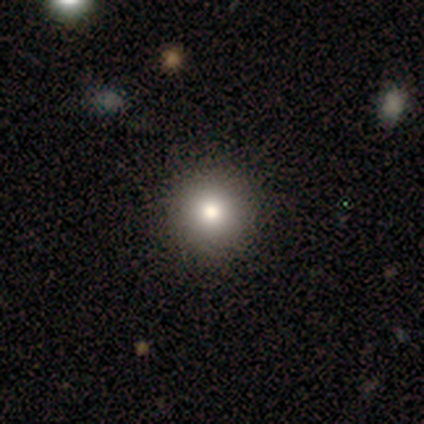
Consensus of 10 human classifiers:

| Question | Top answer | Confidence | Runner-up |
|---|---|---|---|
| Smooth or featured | smooth | 80% | featured or disk (20%) |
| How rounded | round | 88% | in between (12%) |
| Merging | none | 90% | minor disturbance (10%) |